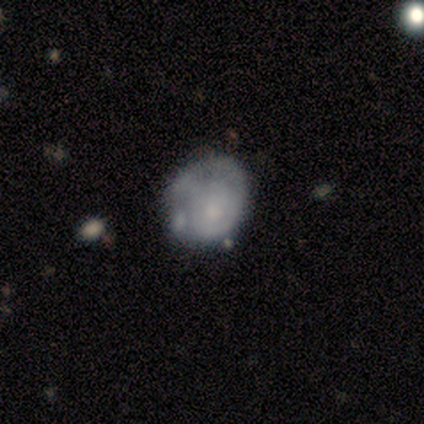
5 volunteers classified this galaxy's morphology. Smooth or featured: featured or disk — 60% (smooth — 40%)
Edge-on disk: no — 100%
Bar: no — 100%
Spiral arms: no — 67% (yes — 33%)
Bulge size: small — 67% (moderate — 33%)
Merging: none — 40% (tied with minor disturbance — 40%)